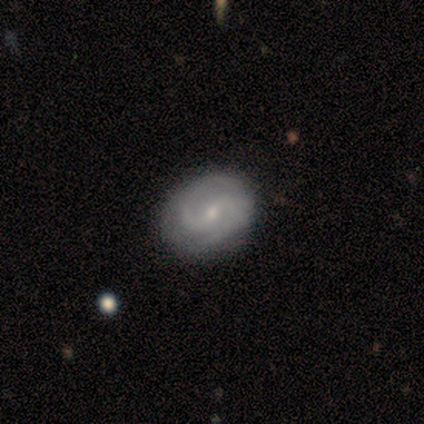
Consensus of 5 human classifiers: A featured or disk galaxy (100%) with a weak bar (60%), 2 (100%) medium (60%) spiral arms (100%) and a small central bulge (100%).

Vote fractions:
- Smooth or featured? featured or disk: 100% / smooth: 0% / star or artifact: 0%
- Edge-on disk? no: 100% / yes: 0%
- Bar? weak: 60% / strong: 20% / no: 20%
- Spiral arms? yes: 100% / no: 0%
- Spiral winding? medium: 60% / tight: 40% / loose: 0%
- Spiral arm count? 2: 100% / 1: 0% / 3: 0% / 4: 0% / more than 4: 0% / can't tell: 0%
- Bulge size? small: 100% / dominant: 0% / large: 0% / moderate: 0% / none: 0%
- Merging? none: 60% / minor disturbance: 20% / major disturbance: 20% / merger: 0%